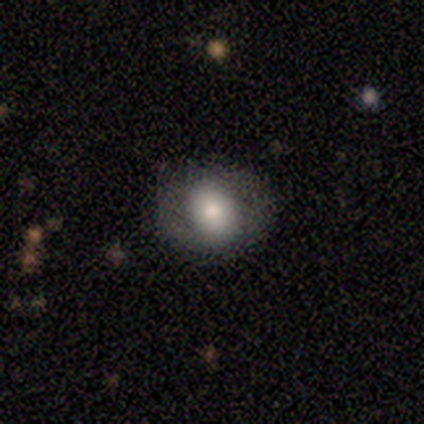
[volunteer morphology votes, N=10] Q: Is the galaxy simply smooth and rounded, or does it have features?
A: smooth — 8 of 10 (80%).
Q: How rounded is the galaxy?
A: in between — 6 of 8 (75%).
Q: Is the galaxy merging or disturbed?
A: none — 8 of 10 (80%).